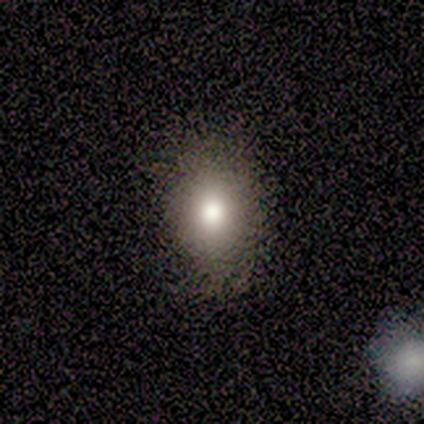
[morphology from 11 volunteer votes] This is likely a smooth galaxy (73%). How rounded: possibly round (50%, tied with in between). Merging: likely none (78%).